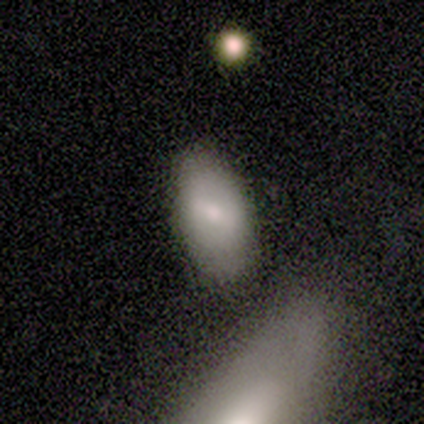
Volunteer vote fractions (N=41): smooth 59%, featured or disk 39%, star or artifact 2%. Down the decision tree: how rounded — in between (88%); merging — none (65%).